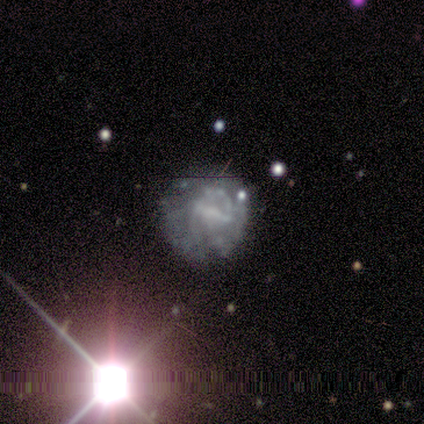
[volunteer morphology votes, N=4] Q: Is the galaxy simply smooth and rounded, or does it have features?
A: featured or disk — 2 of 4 (50%).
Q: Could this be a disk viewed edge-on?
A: no — 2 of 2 (100%).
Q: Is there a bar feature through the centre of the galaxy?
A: strong — 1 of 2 (50%, tied with weak).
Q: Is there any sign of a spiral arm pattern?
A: yes — 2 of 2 (100%).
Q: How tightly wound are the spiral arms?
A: tight — 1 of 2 (50%, tied with medium).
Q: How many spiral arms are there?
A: can't tell — 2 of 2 (100%).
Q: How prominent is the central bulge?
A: moderate — 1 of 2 (50%, tied with none).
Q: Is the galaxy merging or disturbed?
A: none — 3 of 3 (100%).